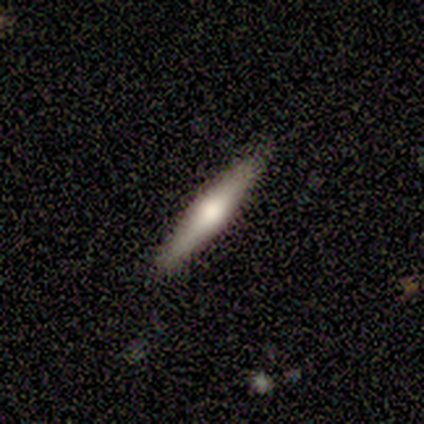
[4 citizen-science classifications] Morphology: type=smooth (50%, tied with featured or disk); roundness=round (50%, tied with cigar-shaped); merging=none (100%).